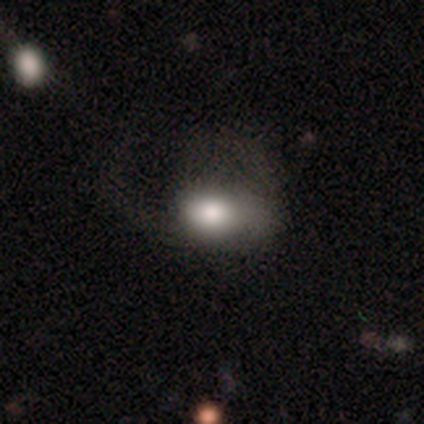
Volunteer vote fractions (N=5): Morphology: type=smooth (100%); roundness=in between (100%); merging=none (40%, tied with major disturbance).